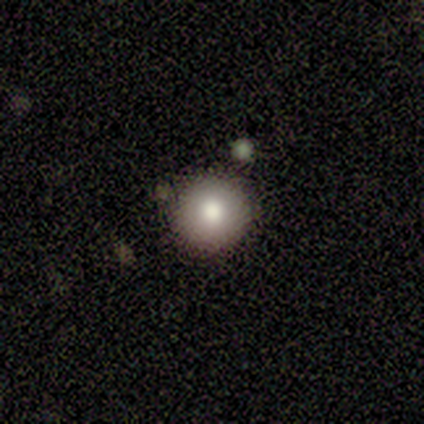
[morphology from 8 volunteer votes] Q: Smooth or featured?
A: smooth (88%); runner-up: star or artifact (12%)
Q: How rounded?
A: round (86%); runner-up: in between (14%)
Q: Merging?
A: none (100%)